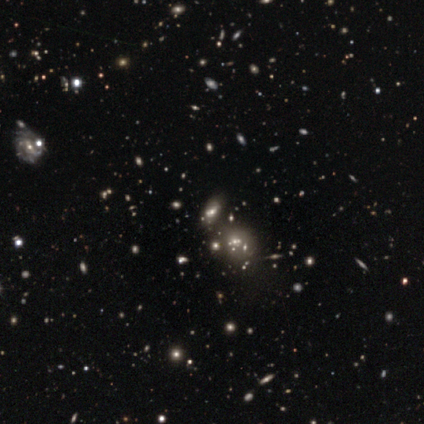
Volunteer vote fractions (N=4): A smooth galaxy with no disk features (50%) that is in between round and cigar-shaped (100%).

Vote fractions:
- Smooth or featured? smooth: 50% / featured or disk: 25% / star or artifact: 25%
- How rounded? in between: 100% / round: 0% / cigar-shaped: 0%
- Merging? none: 67% / major disturbance: 33% / minor disturbance: 0% / merger: 0%